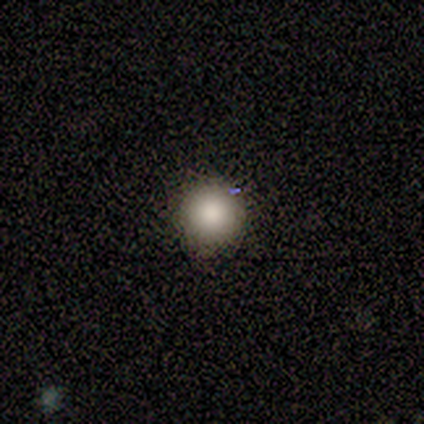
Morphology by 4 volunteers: smooth-or-featured: smooth: 75% | star or artifact: 25% | featured or disk: 0%
  how-rounded: round: 100% | in between: 0% | cigar-shaped: 0%
  merging: none: 100% | minor disturbance: 0% | major disturbance: 0% | merger: 0%